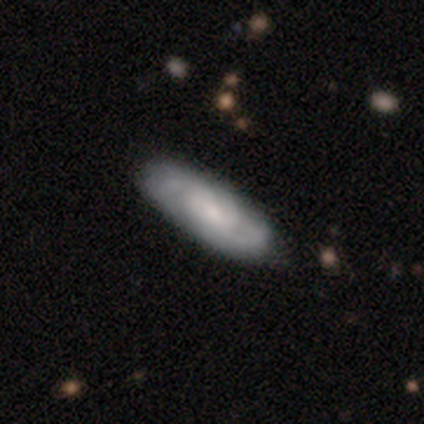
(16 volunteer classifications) Overall: featured or disk (75%). Edge-on disk: no (75%). Bar: no (78%). Spiral arms: yes (100%). Spiral arm count: 2 (56%; 3 22%). Spiral winding: medium (67%; tight 33%). Bulge size: small (78%). Merging: none (81%).